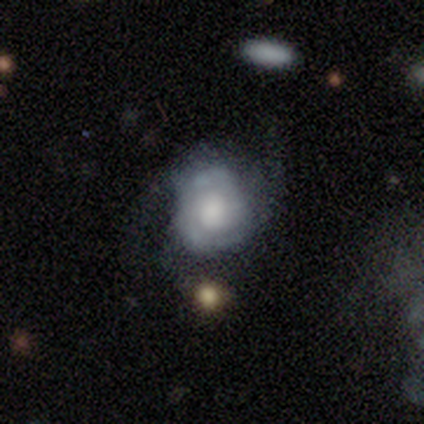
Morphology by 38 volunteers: Smooth or featured? 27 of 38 (71%) said featured or disk. Edge-on disk? 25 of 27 (93%) said no. Bar? 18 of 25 (72%) said no. Spiral arms? 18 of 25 (72%) said yes. Spiral winding? 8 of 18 (44%) said tight. Spiral arm count? 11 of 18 (61%) said 2. Bulge size? 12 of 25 (48%) said large. Merging? 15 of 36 (42%) said none.